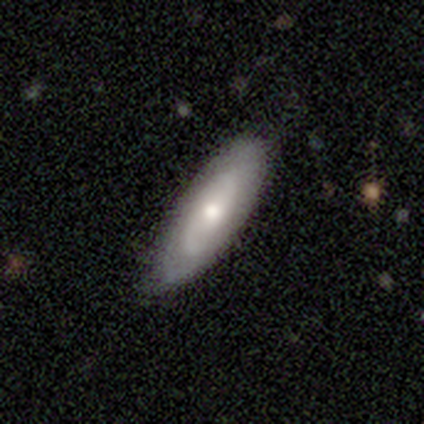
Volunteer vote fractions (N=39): Q: Smooth or featured?
A: featured or disk (56%); runner-up: smooth (31%)
Q: Edge-on disk?
A: no (82%); runner-up: yes (18%)
Q: Bar?
A: no (56%); runner-up: weak (33%)
Q: Spiral arms?
A: yes (78%); runner-up: no (22%)
Q: Spiral winding?
A: tight (64%); runner-up: loose (21%)
Q: Spiral arm count?
A: 2 (50%); tied with: can't tell (50%)
Q: Bulge size?
A: moderate (50%); runner-up: small (33%)
Q: Merging?
A: none (82%); runner-up: minor disturbance (15%)